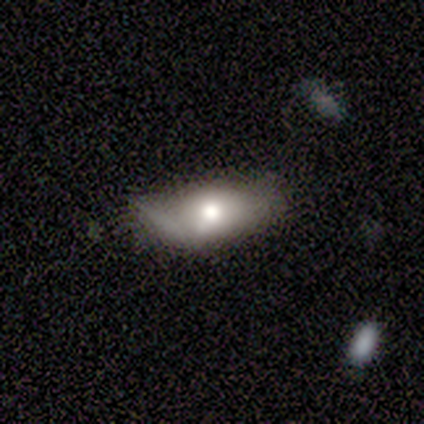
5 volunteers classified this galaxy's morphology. smooth 100%, featured or disk 0%, star or artifact 0%. Down the decision tree: how rounded — in between (80%); merging — minor disturbance (60%).